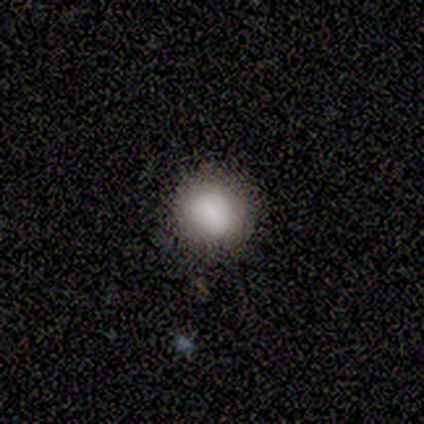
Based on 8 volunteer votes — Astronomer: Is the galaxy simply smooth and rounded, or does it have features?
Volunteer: smooth — 88%.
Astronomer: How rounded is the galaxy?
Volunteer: round — 57% (runner-up: in between, 43%).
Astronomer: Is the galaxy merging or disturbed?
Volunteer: none — 86%.